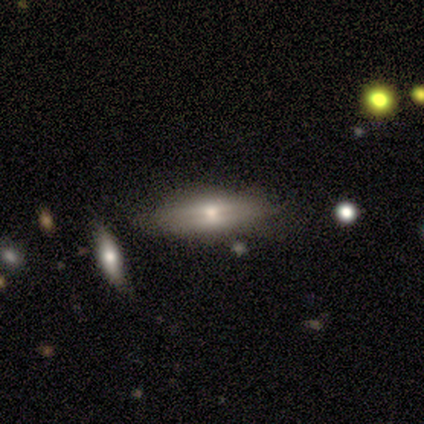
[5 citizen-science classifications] Volunteers were most divided on "smooth or featured": featured or disk: 60%, smooth: 40%, star or artifact: 0%. More confident: edge-on disk — yes (100%); edge-on bulge — rounded (100%); merging — none (100%).